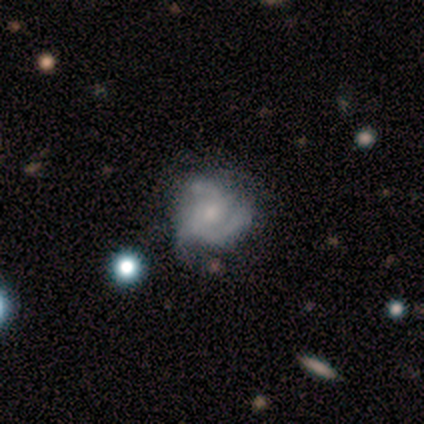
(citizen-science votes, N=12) featured or disk 75%, smooth 25%, star or artifact 0%. Down the decision tree: edge-on disk — no (100%); bar — no (67%); spiral arms — yes (100%); spiral arm count — 3 (56%); spiral winding — tight (67%); bulge size — small (56%); merging — none (67%).